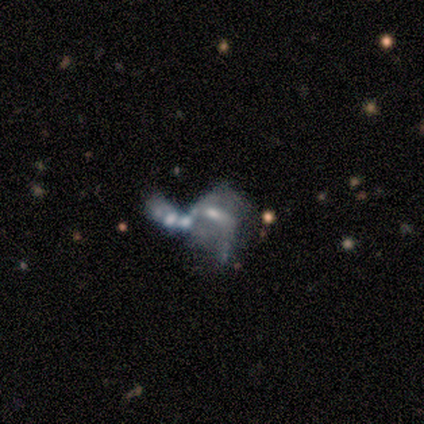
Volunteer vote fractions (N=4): Volunteers were most divided on "smooth or featured" (2-way tie): smooth: 50%, featured or disk: 50%, star or artifact: 0%. More confident: how rounded — in between (100%); merging — none (50%).